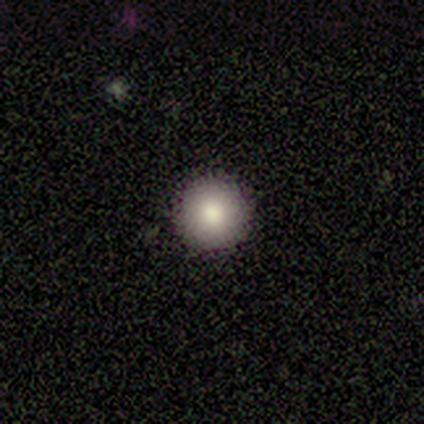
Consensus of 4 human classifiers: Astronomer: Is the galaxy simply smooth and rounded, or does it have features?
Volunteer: smooth — 100%.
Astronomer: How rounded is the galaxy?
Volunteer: round — 100%.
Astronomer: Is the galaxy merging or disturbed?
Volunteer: none — 100%.